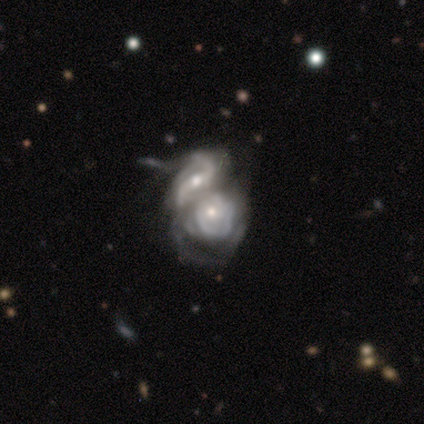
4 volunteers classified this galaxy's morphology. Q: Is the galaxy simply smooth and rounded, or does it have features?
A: featured or disk — 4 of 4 (100%).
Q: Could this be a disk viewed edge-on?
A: no — 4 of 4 (100%).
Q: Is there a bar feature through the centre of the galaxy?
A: no — 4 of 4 (100%).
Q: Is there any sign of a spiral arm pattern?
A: yes — 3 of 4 (75%).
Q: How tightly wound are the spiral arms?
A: tight — 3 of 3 (100%).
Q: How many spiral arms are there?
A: can't tell — 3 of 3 (100%).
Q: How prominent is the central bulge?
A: moderate — 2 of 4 (50%).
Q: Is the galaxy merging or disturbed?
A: merger — 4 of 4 (100%).